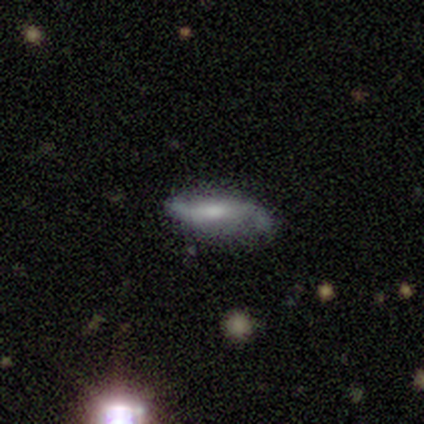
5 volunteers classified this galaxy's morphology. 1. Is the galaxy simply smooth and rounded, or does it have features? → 100% featured or disk, 0% smooth, 0% star or artifact.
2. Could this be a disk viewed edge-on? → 100% no, 0% yes.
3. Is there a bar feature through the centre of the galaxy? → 40% strong (tied), 40% weak (tied), 20% no.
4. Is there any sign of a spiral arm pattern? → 100% yes, 0% no.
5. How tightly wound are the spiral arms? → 100% loose, 0% tight, 0% medium.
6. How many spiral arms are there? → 100% 2, 0% 1, 0% 3, 0% 4, 0% more than 4, 0% can't tell.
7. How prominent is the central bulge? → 40% moderate (tied), 40% small (tied), 20% none, 0% dominant, 0% large.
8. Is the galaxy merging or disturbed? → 80% none, 20% minor disturbance, 0% major disturbance, 0% merger.